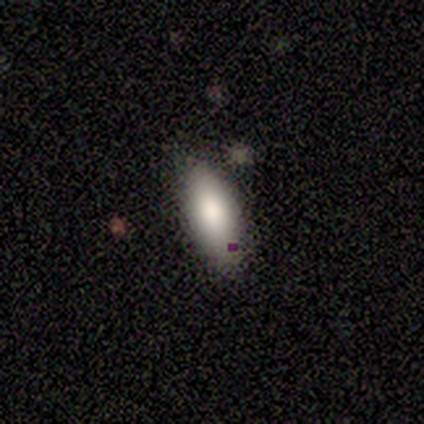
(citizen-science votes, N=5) Morphology: type=smooth (60%); roundness=cigar-shaped (67%); merging=none (60%).